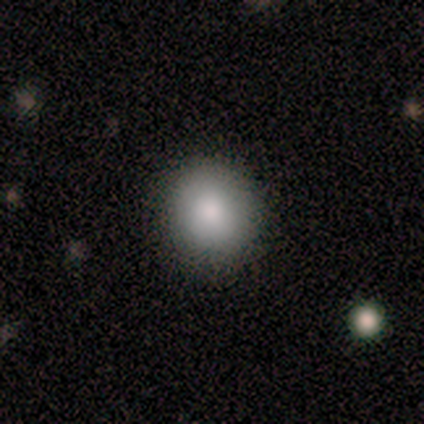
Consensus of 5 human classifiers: smooth 80%, featured or disk 20%, star or artifact 0%. Down the decision tree: how rounded — round (75%); merging — none (80%).